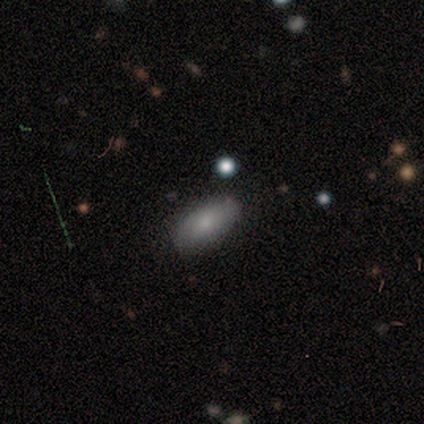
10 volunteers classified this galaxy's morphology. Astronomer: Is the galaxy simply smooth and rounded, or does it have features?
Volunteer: smooth — 90%.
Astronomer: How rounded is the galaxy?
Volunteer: in between — 100%.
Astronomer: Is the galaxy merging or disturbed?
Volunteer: none — 100%.